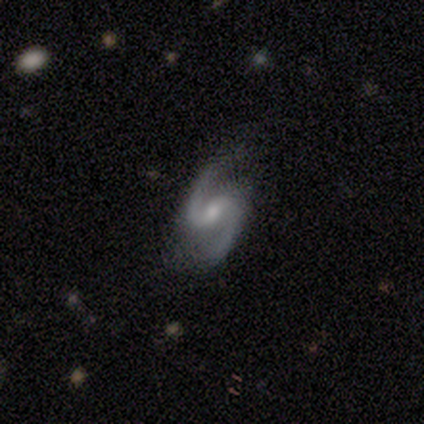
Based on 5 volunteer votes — Smooth or featured?
  - featured or disk: 100% *
  - smooth: 0%
  - star or artifact: 0%
Edge-on disk?
  - no: 100% *
  - yes: 0%
Bar?
  - weak: 60% *
  - no: 40%
  - strong: 0%
Spiral arms?
  - yes: 100% *
  - no: 0%
Spiral winding?
  - medium: 60% *
  - loose: 40%
  - tight: 0%
Spiral arm count?
  - 2: 100% *
  - 1: 0%
  - 3: 0%
  - 4: 0%
  - more than 4: 0%
  - can't tell: 0%
Bulge size?
  - small: 60% *
  - moderate: 40%
  - dominant: 0%
  - large: 0%
  - none: 0%
Merging?
  - none: 100% *
  - minor disturbance: 0%
  - major disturbance: 0%
  - merger: 0%